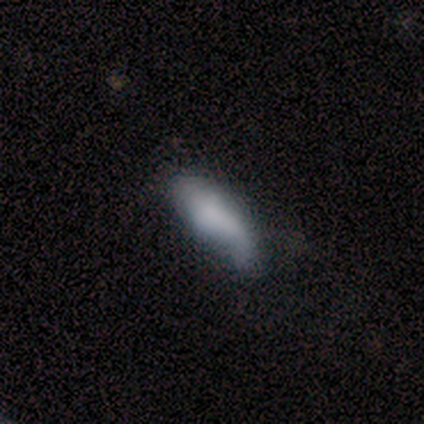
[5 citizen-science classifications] featured or disk 60%, smooth 40%, star or artifact 0%. Down the decision tree: edge-on disk — no (67%); bar — no (100%); spiral arms — yes (50%, tied with no); spiral arm count — can't tell (100%); spiral winding — loose (100%); bulge size — none (100%); merging — none (40%, tied with minor disturbance).